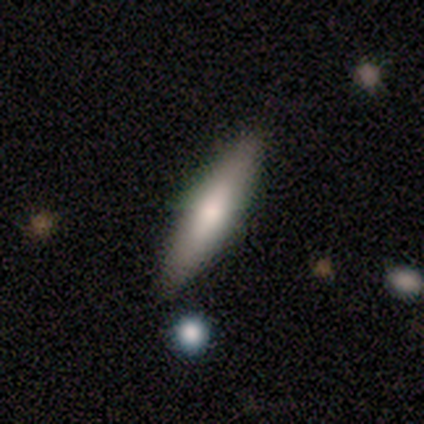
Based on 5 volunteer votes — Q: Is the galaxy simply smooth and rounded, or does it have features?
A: smooth — 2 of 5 (40%, tied with featured or disk).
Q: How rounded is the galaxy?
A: cigar-shaped — 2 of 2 (100%).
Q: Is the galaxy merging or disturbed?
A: none — 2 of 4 (50%, tied with minor disturbance).